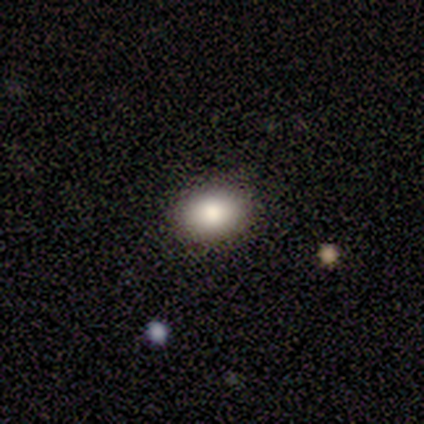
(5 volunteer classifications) A smooth galaxy with no disk features (80%) that is in between round and cigar-shaped (75%). Merging: none (100%).